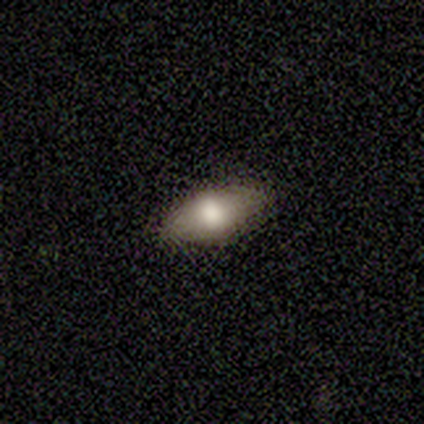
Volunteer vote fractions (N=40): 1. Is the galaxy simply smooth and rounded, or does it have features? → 60% smooth, 25% featured or disk, 15% star or artifact.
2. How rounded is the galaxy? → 96% in between, 4% cigar-shaped, 0% round.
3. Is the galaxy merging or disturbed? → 85% none, 15% minor disturbance, 0% major disturbance, 0% merger.